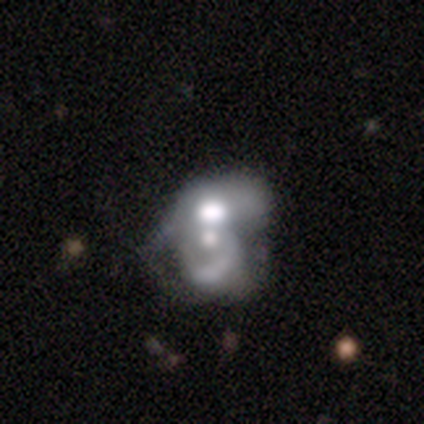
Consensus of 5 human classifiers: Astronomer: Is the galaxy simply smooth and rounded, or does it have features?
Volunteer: featured or disk — 60%.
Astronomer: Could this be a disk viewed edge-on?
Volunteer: no — 100%.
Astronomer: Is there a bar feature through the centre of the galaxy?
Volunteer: no — 100%.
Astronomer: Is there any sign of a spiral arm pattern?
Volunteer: no — 67%.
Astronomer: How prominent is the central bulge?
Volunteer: dominant — 33%, tied with large and small at 33%.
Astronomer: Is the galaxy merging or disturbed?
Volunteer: merger — 75%.